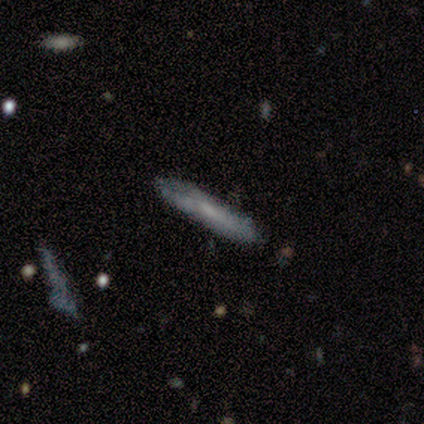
Smooth or featured?
  - smooth: 80% *
  - featured or disk: 20%
  - star or artifact: 0%
How rounded?
  - cigar-shaped: 100% *
  - round: 0%
  - in between: 0%
Merging?
  - none: 100% *
  - minor disturbance: 0%
  - major disturbance: 0%
  - merger: 0%